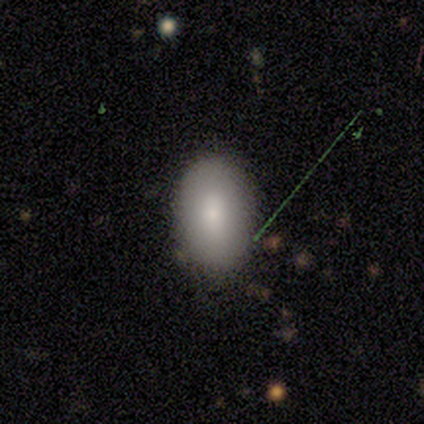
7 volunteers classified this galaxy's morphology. smooth-or-featured: smooth: 86% | star or artifact: 14% | featured or disk: 0%
  how-rounded: in between: 100% | round: 0% | cigar-shaped: 0%
  merging: none: 50% (tied) | minor disturbance: 50% (tied) | major disturbance: 0% | merger: 0%